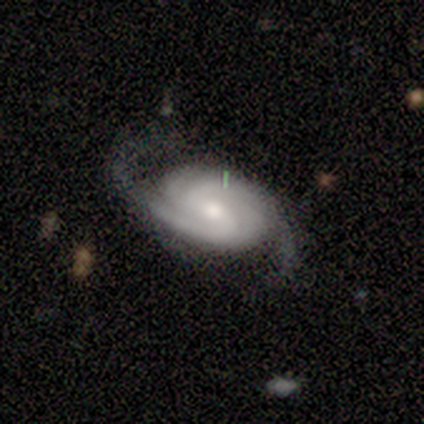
Q: Smooth or featured?
A: featured or disk (88%); runner-up: smooth (12%)
Q: Edge-on disk?
A: no (100%)
Q: Bar?
A: weak (43%); tied with: no (43%)
Q: Spiral arms?
A: yes (100%)
Q: Spiral winding?
A: tight (57%); runner-up: medium (43%)
Q: Spiral arm count?
A: 2 (57%); runner-up: 3 (14%)
Q: Bulge size?
A: moderate (57%); runner-up: small (43%)
Q: Merging?
A: none (50%); runner-up: minor disturbance (25%)